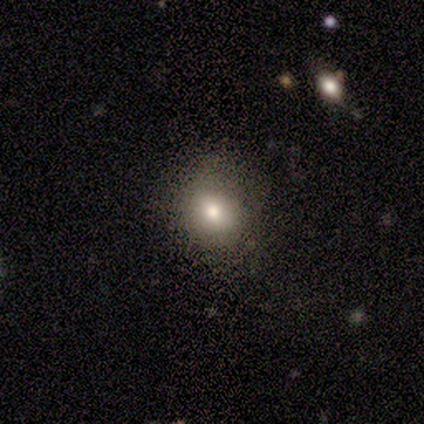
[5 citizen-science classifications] This appears to be a smooth galaxy with no disk features (80%) that is in between round and cigar-shaped (75%). Merging: none (75%).